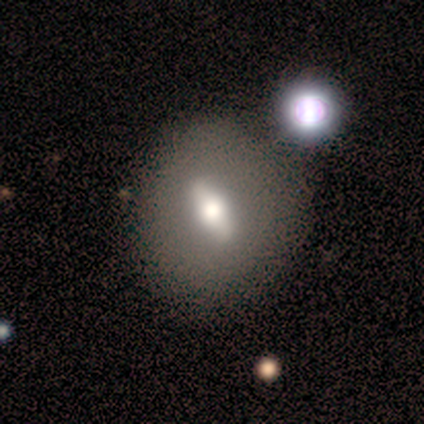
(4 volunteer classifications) smooth-or-featured: featured or disk: 75% | smooth: 25% | star or artifact: 0%
  disk-edge-on: no: 67% | yes: 33%
    bar: strong: 50% (tied) | no: 50% (tied) | weak: 0%
    has-spiral-arms: no: 100% | yes: 0%
    bulge-size: large: 50% (tied) | moderate: 50% (tied) | dominant: 0% | small: 0% | none: 0%
  merging: none: 75% | merger: 25% | minor disturbance: 0% | major disturbance: 0%